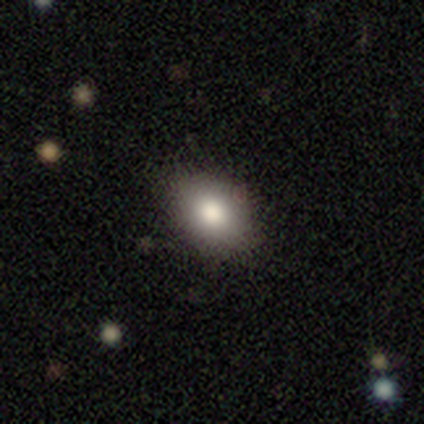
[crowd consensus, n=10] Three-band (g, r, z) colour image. It shows a smooth galaxy with no disk features (90%) that is in between round and cigar-shaped (89%). Merging: none (89%).